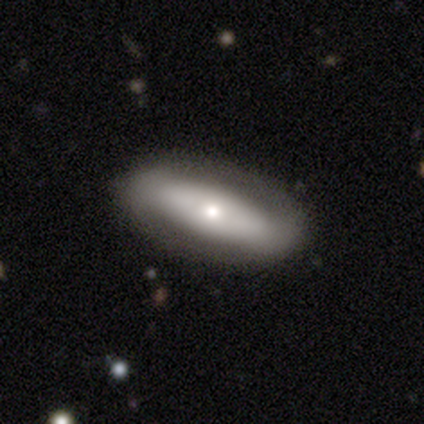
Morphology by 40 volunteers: Smooth or featured?
  - smooth: 48% *
  - featured or disk: 38%
  - star or artifact: 15%
How rounded?
  - in between: 68% *
  - cigar-shaped: 32%
  - round: 0%
Merging?
  - none: 79% *
  - minor disturbance: 18%
  - major disturbance: 3%
  - merger: 0%